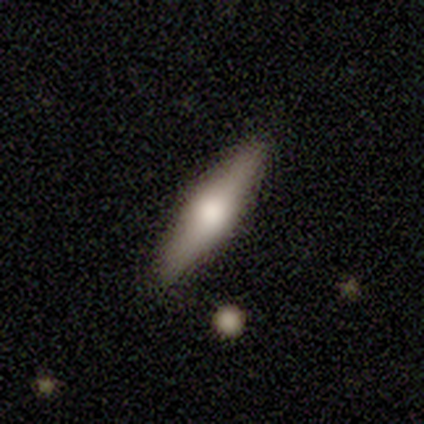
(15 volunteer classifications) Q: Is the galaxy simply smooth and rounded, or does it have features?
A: smooth — 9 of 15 (60%).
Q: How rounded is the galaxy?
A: cigar-shaped — 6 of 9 (67%).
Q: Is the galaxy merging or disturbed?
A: none — 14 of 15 (93%).